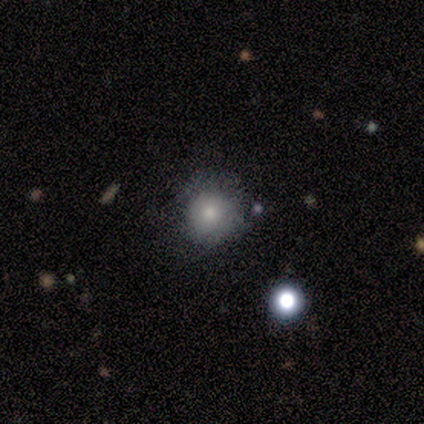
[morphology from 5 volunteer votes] Smooth or featured? smooth (60%)
How rounded? round (100%)
Merging? none (100%)